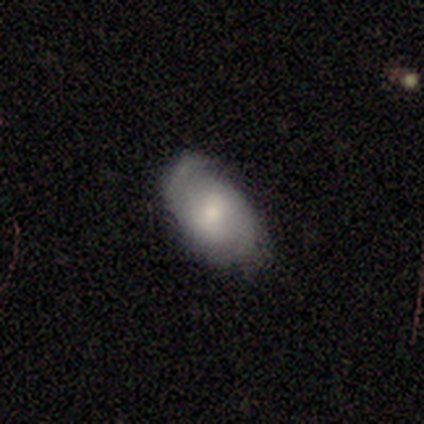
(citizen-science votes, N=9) smooth 44% (tied), featured or disk 44% (tied), star or artifact 11%. Down the decision tree: how rounded — in between (100%); merging — none (62%).